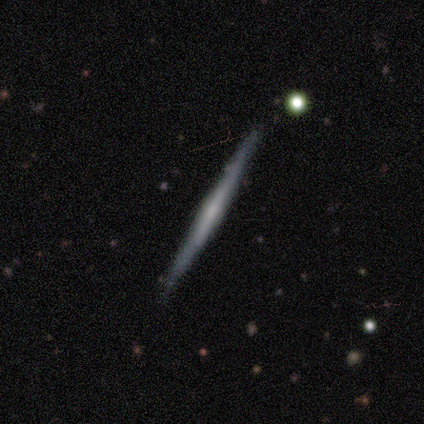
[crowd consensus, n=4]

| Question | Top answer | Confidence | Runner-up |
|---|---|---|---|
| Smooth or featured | featured or disk | 100% | — |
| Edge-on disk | yes | 100% | — |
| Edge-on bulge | none | 50% | boxy (25%) |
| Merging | none | 100% | — |